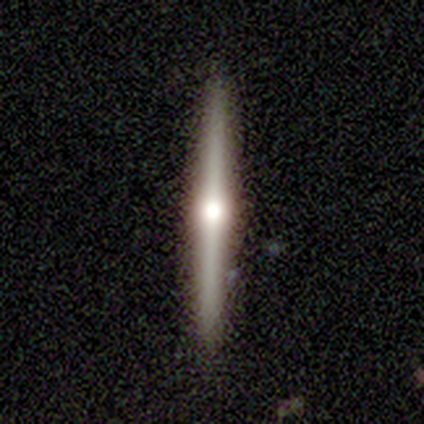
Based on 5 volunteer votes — This appears to be a featured or disk galaxy (80%) viewed edge-on (100%) with a rounded central bulge (100%). Merging: none (100%).